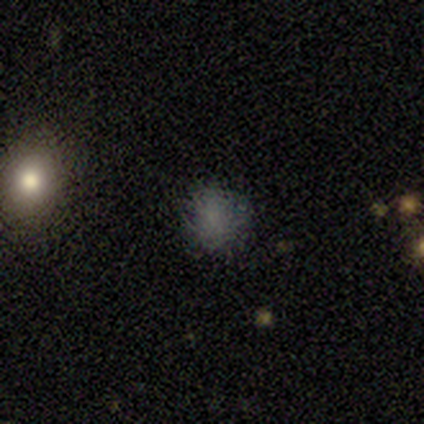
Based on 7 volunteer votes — A smooth galaxy with no disk features (86%) that is round (50%, tied with in between). Merging: none (71%).